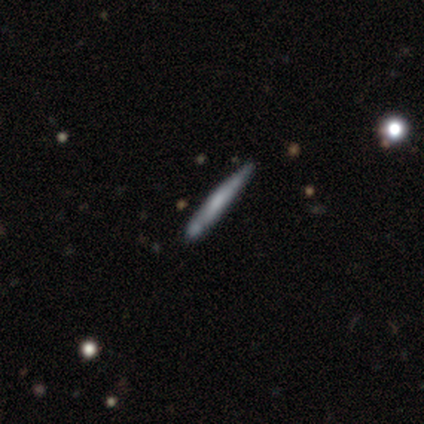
smooth_or_featured: featured or disk (p=0.66) [alt: smooth p=0.32]
disk_edge_on: yes (p=0.86) [alt: no p=0.14]
edge_on_bulge: none (p=0.56) [alt: rounded p=0.24]
merging: none (p=0.70) [alt: minor disturbance p=0.16]